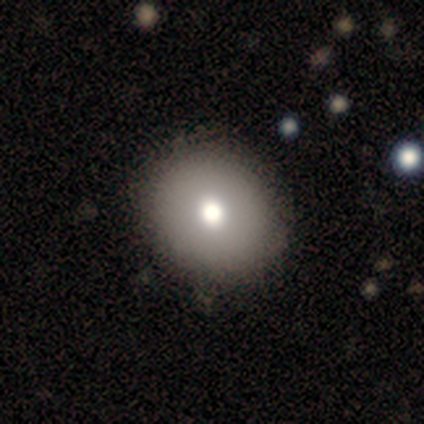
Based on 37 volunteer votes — Volunteers were most divided on "merging": none: 71%, minor disturbance: 6%, major disturbance: 0%, merger: 0%. More confident: how rounded — round (83%); smooth or featured — smooth (81%).